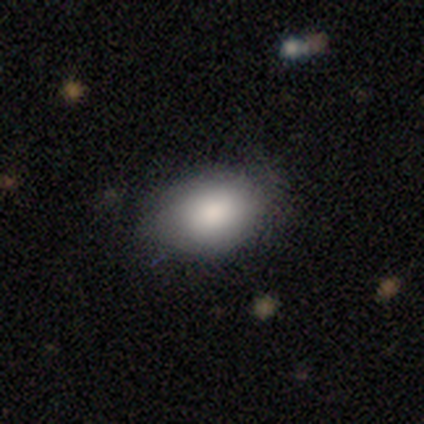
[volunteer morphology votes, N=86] smooth-or-featured: smooth: 80% | star or artifact: 10% | featured or disk: 9%
  how-rounded: in between: 88% | round: 12% | cigar-shaped: 0%
  merging: none: 71% | minor disturbance: 23% | major disturbance: 4% | merger: 1%